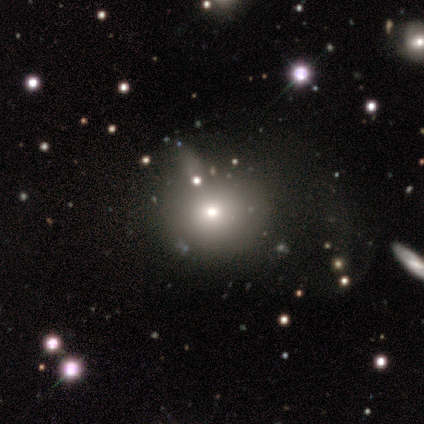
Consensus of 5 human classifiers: Smooth or featured? smooth (80%)
How rounded? round (100%)
Merging? none (60%)